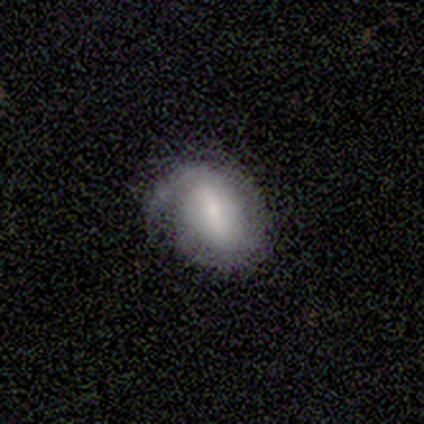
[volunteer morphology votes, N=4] Smooth or featured? 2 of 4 (50%) said smooth. How rounded? 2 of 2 (100%) said in between. Merging? 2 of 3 (67%) said minor disturbance.